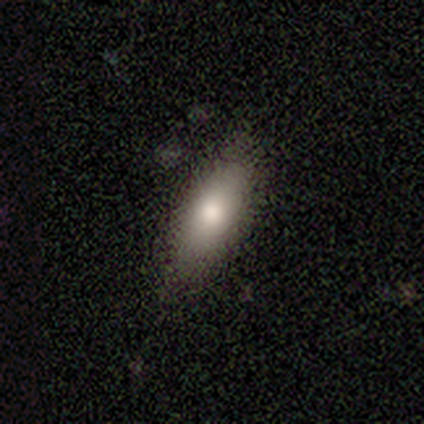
A smooth galaxy with no disk features (60%) that is cigar-shaped (67%).

Vote fractions:
- Smooth or featured? smooth: 60% / featured or disk: 20% / star or artifact: 20%
- How rounded? cigar-shaped: 67% / in between: 33% / round: 0%
- Merging? none: 100% / minor disturbance: 0% / major disturbance: 0% / merger: 0%